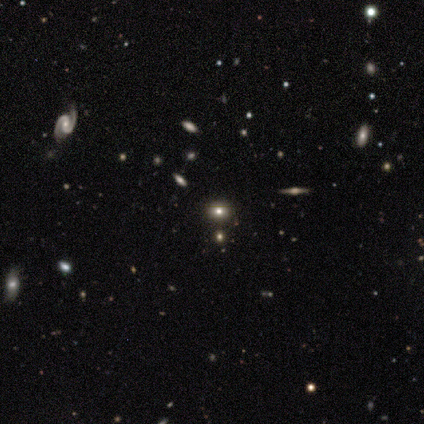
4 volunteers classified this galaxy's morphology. Smooth or featured? 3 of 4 (75%) said smooth. How rounded? 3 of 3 (100%) said round. Merging? 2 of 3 (67%) said none.